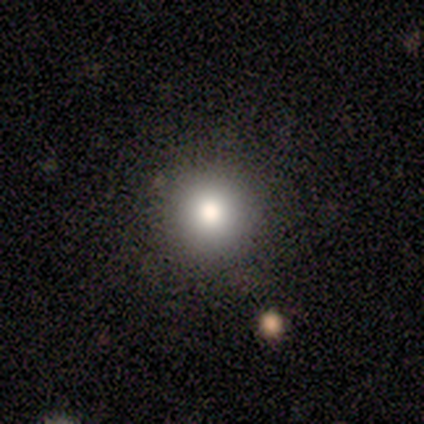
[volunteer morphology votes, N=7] smooth 71%, featured or disk 14%, star or artifact 14%. Down the decision tree: how rounded — round (100%); merging — none (100%).